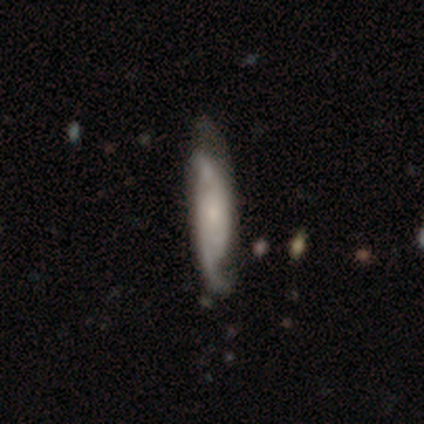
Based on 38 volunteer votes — This appears to be a featured or disk galaxy (84%) with no bar (67%), 2 (86%) medium (41%) spiral arms (97%) and a small central bulge (77%). Merging: none (47%).